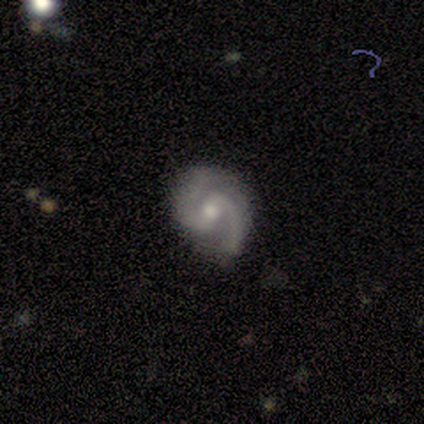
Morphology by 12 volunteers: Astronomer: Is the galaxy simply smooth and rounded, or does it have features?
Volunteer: featured or disk — 100%.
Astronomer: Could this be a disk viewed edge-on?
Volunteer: no — 100%.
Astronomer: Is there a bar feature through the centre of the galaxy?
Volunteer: strong — 33%, tied with weak and no at 33%.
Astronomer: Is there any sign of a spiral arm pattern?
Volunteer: yes — 92%.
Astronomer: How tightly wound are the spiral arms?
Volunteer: medium — 45%, tied with loose at 45%.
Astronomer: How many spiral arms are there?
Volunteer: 2 — 100%.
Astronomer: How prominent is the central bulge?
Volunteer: small — 58% (runner-up: moderate, 42%).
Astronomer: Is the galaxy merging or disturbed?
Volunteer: none — 83%.